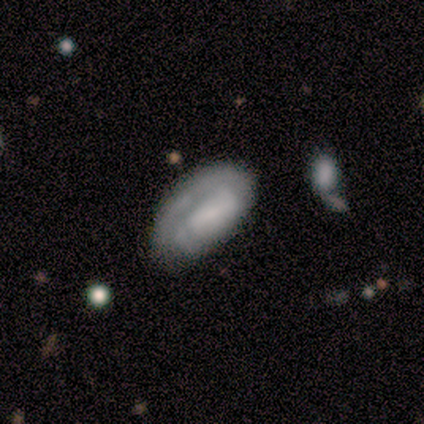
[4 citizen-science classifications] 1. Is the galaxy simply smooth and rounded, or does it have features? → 75% smooth, 25% featured or disk, 0% star or artifact.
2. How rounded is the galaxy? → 67% in between, 33% cigar-shaped, 0% round.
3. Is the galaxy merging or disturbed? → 50% none (tied), 50% minor disturbance (tied), 0% major disturbance, 0% merger.